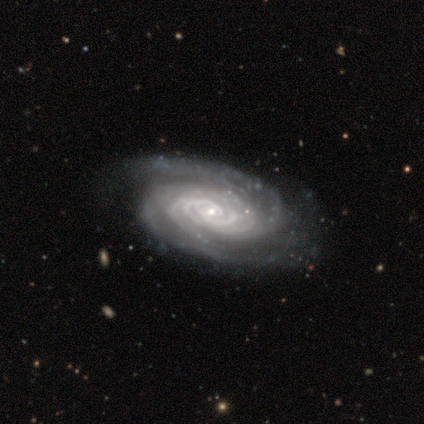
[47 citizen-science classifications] Overall: featured or disk (91%). Edge-on disk: no (95%). Bar: no (78%). Spiral arms: yes (100%). Spiral arm count: 2 (37%; more than 4 32%). Spiral winding: tight (85%). Bulge size: small (76%). Merging: none (75%).